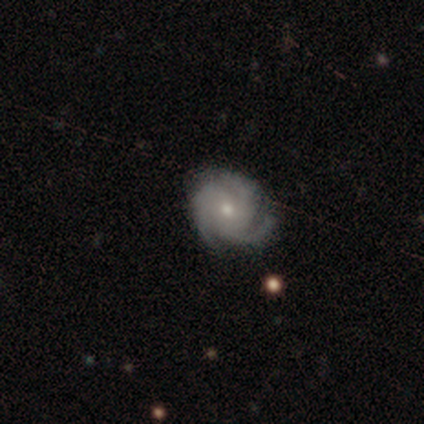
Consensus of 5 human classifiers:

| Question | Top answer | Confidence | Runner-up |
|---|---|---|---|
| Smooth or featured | featured or disk | 60% | smooth (40%) |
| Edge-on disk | no | 100% | — |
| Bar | no | 100% | — |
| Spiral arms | yes | 100% | — |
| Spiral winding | tight | 67% | medium (33%) |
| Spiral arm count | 3 | 100% | — |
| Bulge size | moderate | 100% | — |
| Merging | none | 80% | minor disturbance (20%) |